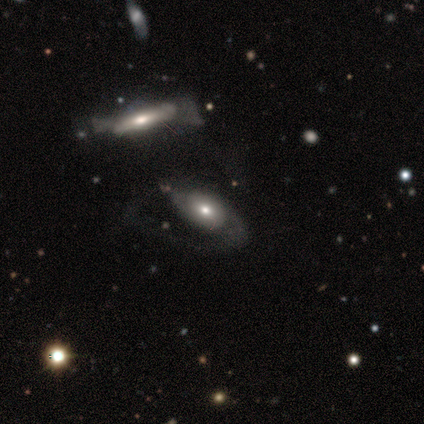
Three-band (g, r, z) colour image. It shows a smooth galaxy with no disk features (60%) that is round (33%, tied with in between and cigar-shaped). Merging: none (25%, tied with minor disturbance, major disturbance and merger).